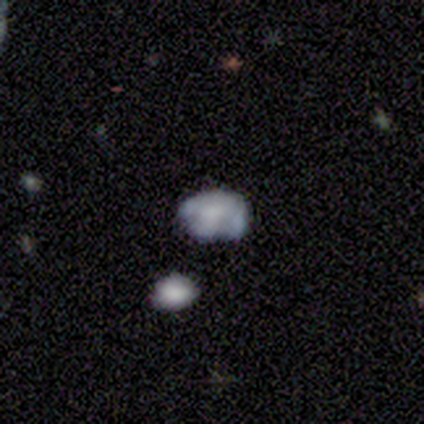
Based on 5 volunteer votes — smooth-or-featured: smooth: 60% | featured or disk: 20% | star or artifact: 20%
  how-rounded: in between: 67% | round: 33% | cigar-shaped: 0%
  merging: none: 50% | minor disturbance: 25% | merger: 25% | major disturbance: 0%